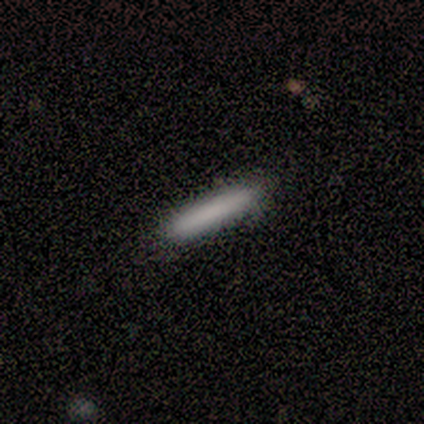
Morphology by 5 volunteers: smooth_or_featured: smooth (p=1.00)
how_rounded: cigar-shaped (p=1.00)
merging: none (p=1.00)